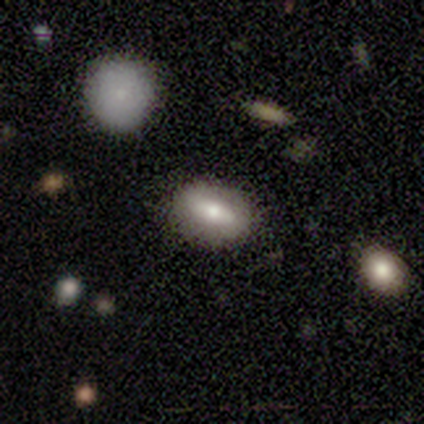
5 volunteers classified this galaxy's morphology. Smooth or featured? smooth (60%)
How rounded? in between (67%)
Merging? none (100%)